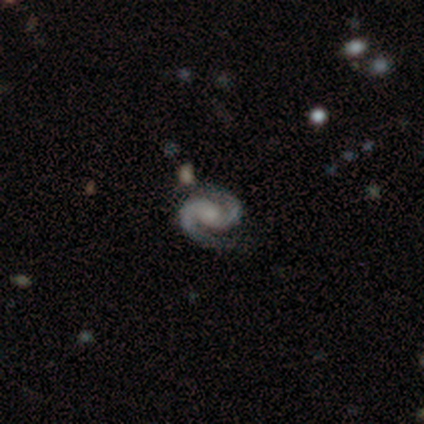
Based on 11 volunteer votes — smooth_or_featured: featured or disk (p=1.00)
disk_edge_on: no (p=1.00)
bar: no (p=0.82) [alt: strong p=0.09]
has_spiral_arms: yes (p=0.82) [alt: no p=0.18]
spiral_winding: tight (p=0.44) [tied with: medium p=0.44]
spiral_arm_count: 2 (p=1.00)
bulge_size: moderate (p=0.55) [alt: small p=0.45]
merging: none (p=0.82) [alt: merger p=0.18]